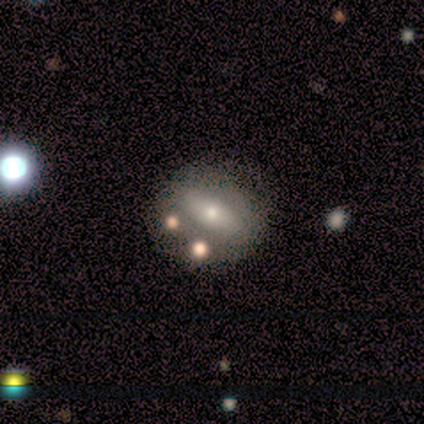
smooth 60%, featured or disk 40%, star or artifact 0%. Down the decision tree: how rounded — in between (67%); merging — none (60%).